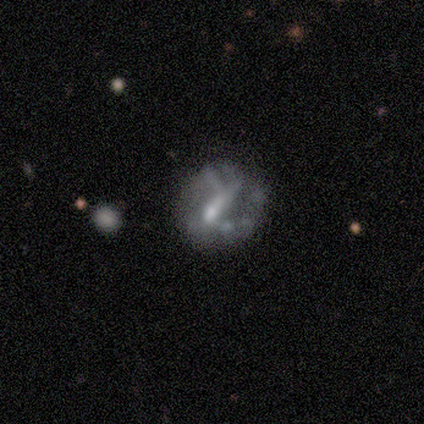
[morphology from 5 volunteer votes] Smooth or featured? featured or disk (60%)
Edge-on disk? no (100%)
Bar? strong (67%)
Spiral arms? no (67%)
Bulge size? moderate (67%)
Merging? none (75%)